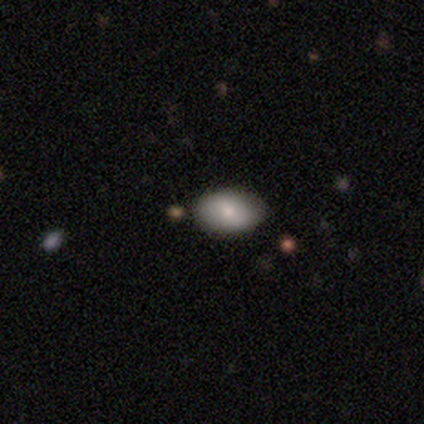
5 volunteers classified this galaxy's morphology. type=smooth (80%); roundness=in between (100%); merging=none (100%).